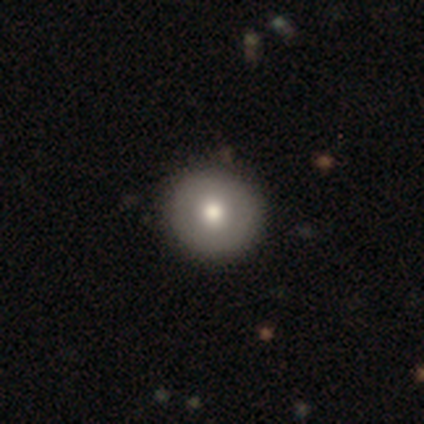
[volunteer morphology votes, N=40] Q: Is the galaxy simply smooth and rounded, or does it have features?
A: smooth — 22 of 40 (55%).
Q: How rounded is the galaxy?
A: round — 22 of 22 (100%).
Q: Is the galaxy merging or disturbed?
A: none — 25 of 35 (71%).